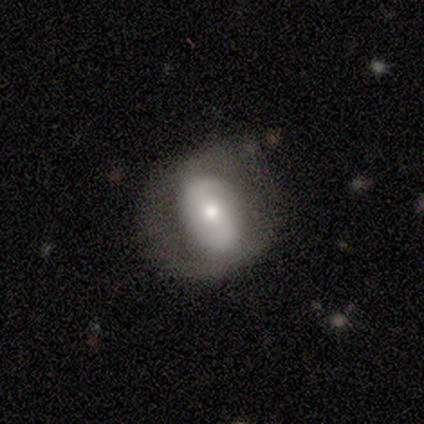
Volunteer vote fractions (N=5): smooth-or-featured: featured or disk: 80% | smooth: 20% | star or artifact: 0%
  disk-edge-on: no: 75% | yes: 25%
    bar: no: 67% | strong: 33% | weak: 0%
    has-spiral-arms: yes: 67% | no: 33%
      spiral-winding: tight: 50% (tied) | medium: 50% (tied) | loose: 0%
      spiral-arm-count: 2: 100% | 1: 0% | 3: 0% | 4: 0% | more than 4: 0% | can't tell: 0%
    bulge-size: large: 33% (tied) | moderate: 33% (tied) | small: 33% (tied) | dominant: 0% | none: 0%
  merging: none: 40% (tied) | minor disturbance: 40% (tied) | major disturbance: 20% | merger: 0%